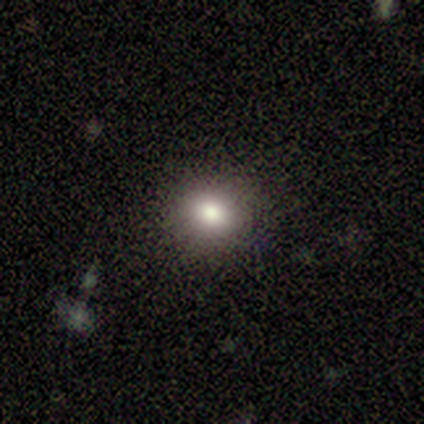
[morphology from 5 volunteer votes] Q: Smooth or featured?
A: smooth (100%)
Q: How rounded?
A: round (100%)
Q: Merging?
A: none (80%); runner-up: minor disturbance (20%)